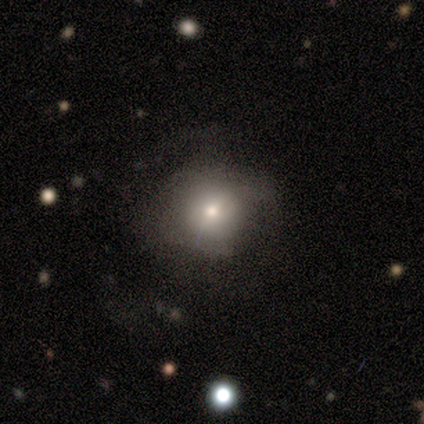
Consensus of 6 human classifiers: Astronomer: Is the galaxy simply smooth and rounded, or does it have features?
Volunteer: smooth — 67%.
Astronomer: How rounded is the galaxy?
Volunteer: round — 100%.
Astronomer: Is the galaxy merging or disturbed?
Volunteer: none — 40%, tied with major disturbance at 40%.